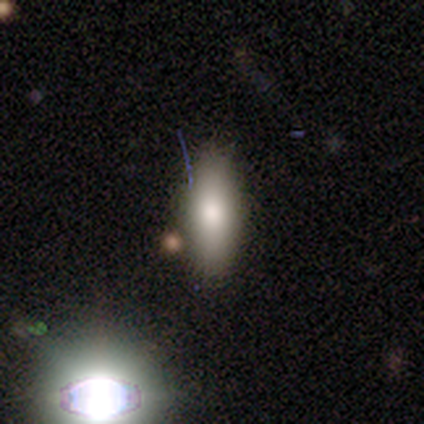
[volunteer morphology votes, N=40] Q: Smooth or featured?
A: smooth (80%); runner-up: star or artifact (12%)
Q: How rounded?
A: in between (59%); runner-up: cigar-shaped (38%)
Q: Merging?
A: none (71%); runner-up: minor disturbance (14%)